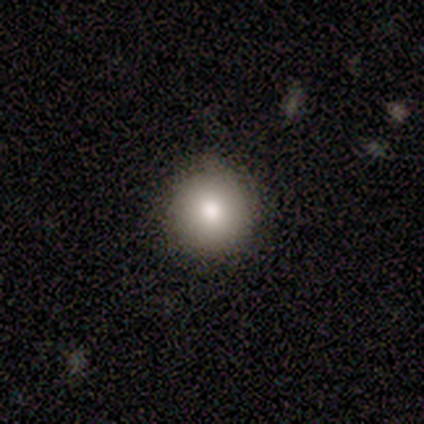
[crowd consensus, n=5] A smooth galaxy with no disk features (100%) that is round (100%).

Vote fractions:
- Smooth or featured? smooth: 100% / featured or disk: 0% / star or artifact: 0%
- How rounded? round: 100% / in between: 0% / cigar-shaped: 0%
- Merging? minor disturbance: 60% / none: 40% / major disturbance: 0% / merger: 0%